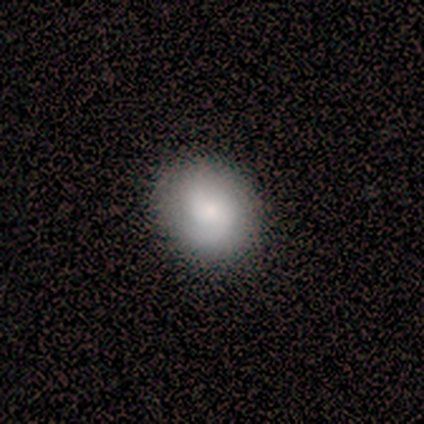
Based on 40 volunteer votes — A smooth galaxy with no disk features (52%) that is round (81%).

Vote fractions:
- Smooth or featured? smooth: 52% / featured or disk: 40% / star or artifact: 8%
- How rounded? round: 81% / in between: 19% / cigar-shaped: 0%
- Merging? none: 89% / minor disturbance: 5% / major disturbance: 5% / merger: 0%